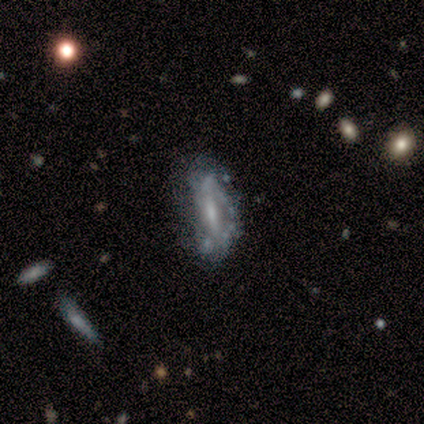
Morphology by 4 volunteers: Smooth or featured? featured or disk (100%)
Edge-on disk? yes (50%, tied with no)
Edge-on bulge? boxy (50%, tied with none)
Merging? none (50%, tied with minor disturbance)